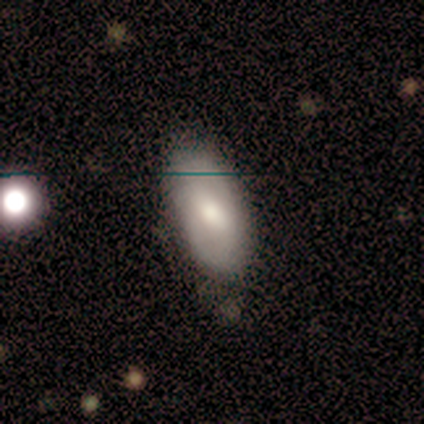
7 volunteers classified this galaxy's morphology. A smooth galaxy with no disk features (86%) that is in between round and cigar-shaped (100%).

Vote fractions:
- Smooth or featured? smooth: 86% / featured or disk: 14% / star or artifact: 0%
- How rounded? in between: 100% / round: 0% / cigar-shaped: 0%
- Merging? none: 57% / minor disturbance: 43% / major disturbance: 0% / merger: 0%